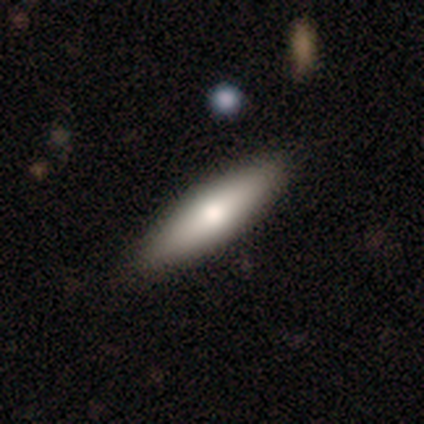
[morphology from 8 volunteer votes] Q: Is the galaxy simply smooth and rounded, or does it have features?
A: smooth — 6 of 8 (75%).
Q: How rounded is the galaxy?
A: cigar-shaped — 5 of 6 (83%).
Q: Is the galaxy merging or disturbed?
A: none — 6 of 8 (75%).